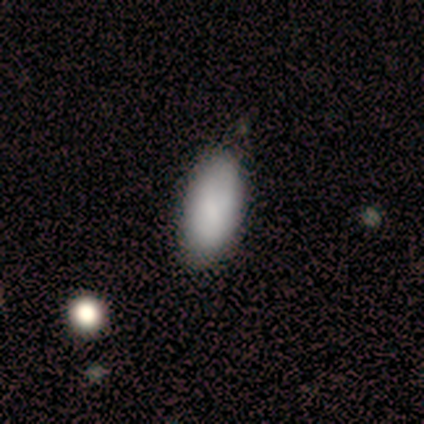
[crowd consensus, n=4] Overall: smooth (75%). How rounded: in between (100%). Merging: none (75%).